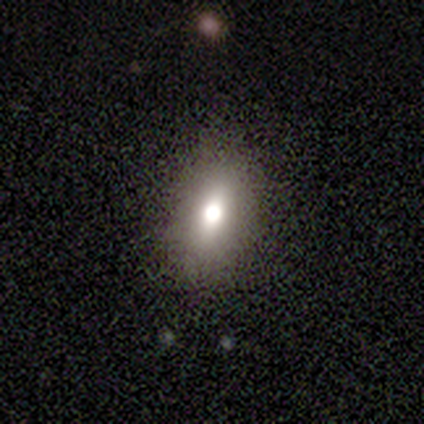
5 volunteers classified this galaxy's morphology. smooth 40% (tied), star or artifact 40% (tied), featured or disk 20%. Down the decision tree: how rounded — round (50%, tied with in between); merging — none (67%).